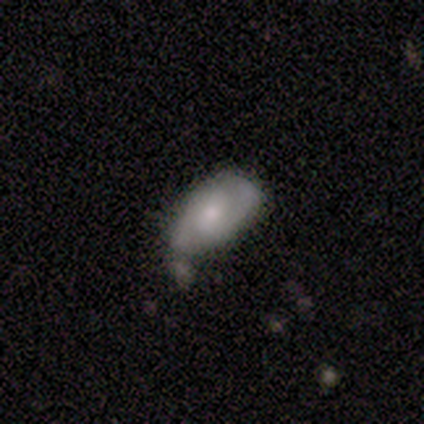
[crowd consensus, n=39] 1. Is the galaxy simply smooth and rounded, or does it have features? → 54% smooth, 38% featured or disk, 8% star or artifact.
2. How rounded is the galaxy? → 81% in between, 10% round, 10% cigar-shaped.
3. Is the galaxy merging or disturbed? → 53% minor disturbance, 33% none, 8% merger, 6% major disturbance.